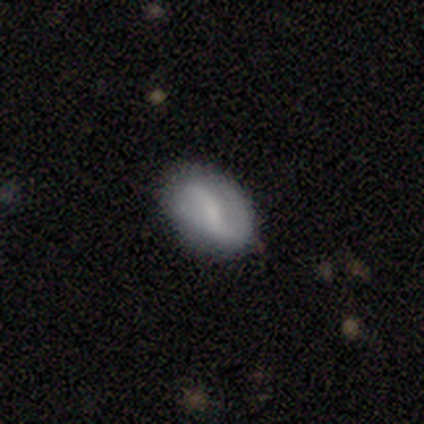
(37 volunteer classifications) A featured or disk galaxy (78%) with a weak bar (61%), 2 (85%) loose (54%) spiral arms (93%) and a small central bulge (50%). Merging: none (86%).